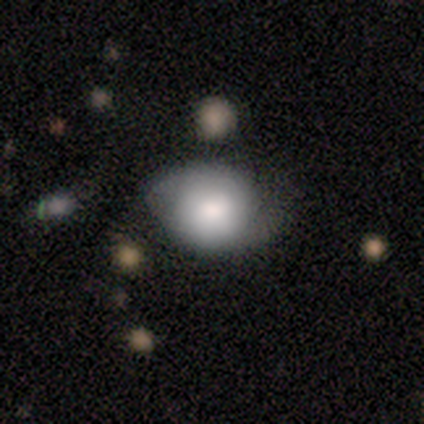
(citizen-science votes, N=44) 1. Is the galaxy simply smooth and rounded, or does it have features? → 68% smooth, 23% featured or disk, 9% star or artifact.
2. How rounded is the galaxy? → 63% round, 37% in between, 0% cigar-shaped.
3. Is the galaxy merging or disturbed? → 45% none, 35% minor disturbance, 15% major disturbance, 5% merger.